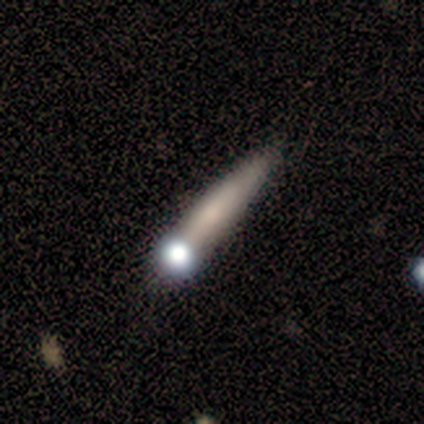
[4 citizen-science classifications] A smooth galaxy with no disk features (50%, tied with featured or disk) that is cigar-shaped (100%). Merging: none (75%).